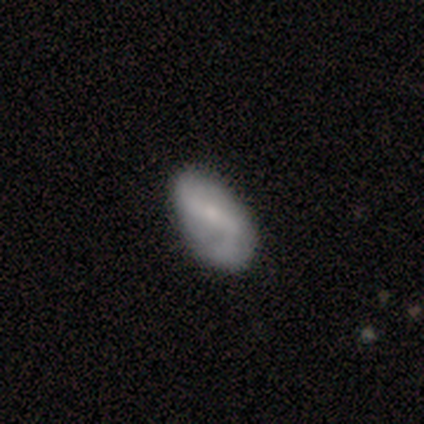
Smooth or featured: smooth — 57% (featured or disk — 43%)
How rounded: in between — 100%
Merging: none — 71% (minor disturbance — 29%)